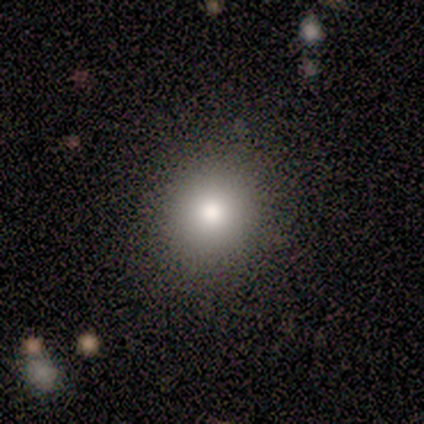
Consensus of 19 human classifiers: Smooth or featured?
  - smooth: 95% *
  - star or artifact: 5%
  - featured or disk: 0%
How rounded?
  - round: 94% *
  - in between: 6%
  - cigar-shaped: 0%
Merging?
  - none: 100% *
  - minor disturbance: 0%
  - major disturbance: 0%
  - merger: 0%